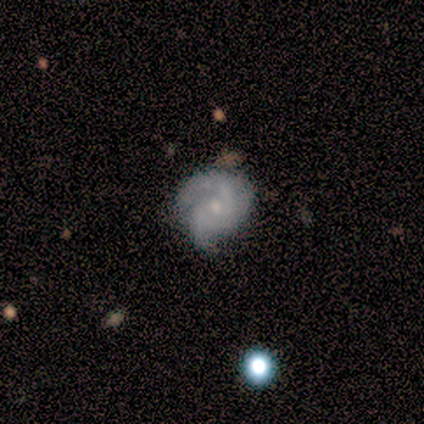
Smooth or featured?
  - featured or disk: 100% *
  - smooth: 0%
  - star or artifact: 0%
Edge-on disk?
  - no: 100% *
  - yes: 0%
Bar?
  - no: 80% *
  - weak: 20%
  - strong: 0%
Spiral arms?
  - yes: 100% *
  - no: 0%
Spiral winding?
  - medium: 40% * (tied)
  - loose: 40% * (tied)
  - tight: 20%
Spiral arm count?
  - 2: 80% *
  - 3: 20%
  - 1: 0%
  - 4: 0%
  - more than 4: 0%
  - can't tell: 0%
Bulge size?
  - small: 80% *
  - moderate: 20%
  - dominant: 0%
  - large: 0%
  - none: 0%
Merging?
  - minor disturbance: 60% *
  - none: 40%
  - major disturbance: 0%
  - merger: 0%